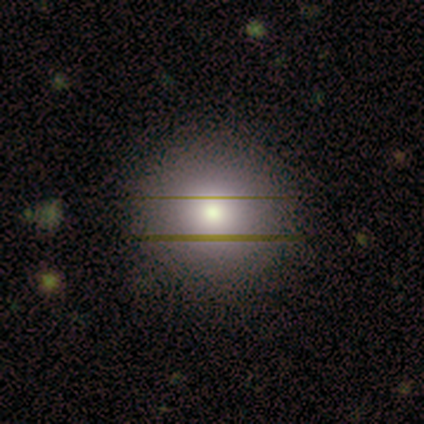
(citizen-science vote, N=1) This is clearly a smooth galaxy (100%). How rounded: clearly round (100%). Merging: clearly none (100%).